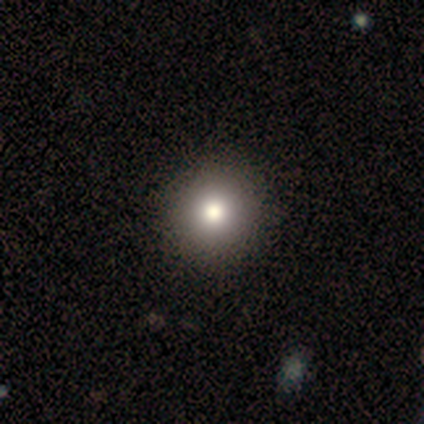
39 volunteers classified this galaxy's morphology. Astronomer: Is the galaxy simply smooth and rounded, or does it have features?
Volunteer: smooth — 67%.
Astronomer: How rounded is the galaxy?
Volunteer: round — 96%.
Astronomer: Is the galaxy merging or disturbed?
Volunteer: none — 93%.